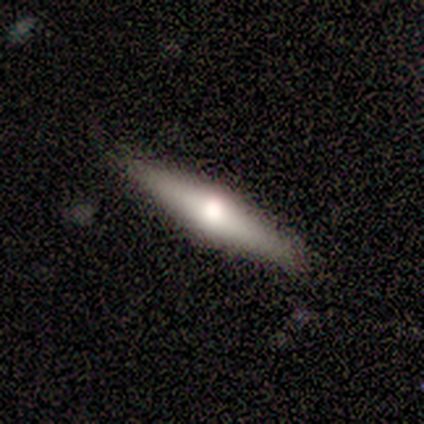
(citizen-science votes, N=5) Smooth or featured: smooth — 80% (featured or disk — 20%)
How rounded: cigar-shaped — 100%
Merging: none — 100%